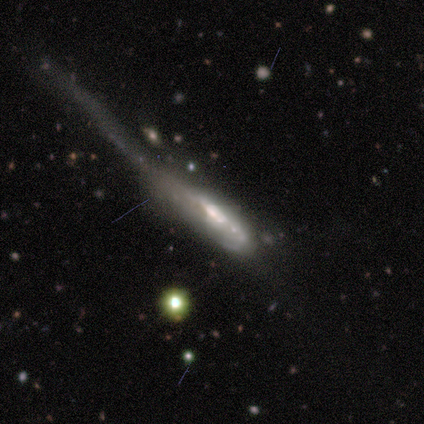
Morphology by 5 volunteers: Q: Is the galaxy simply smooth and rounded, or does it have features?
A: featured or disk — 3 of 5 (60%).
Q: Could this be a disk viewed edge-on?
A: yes — 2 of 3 (67%).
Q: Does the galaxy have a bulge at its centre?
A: boxy — 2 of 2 (100%).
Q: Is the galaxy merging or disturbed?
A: major disturbance — 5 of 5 (100%).